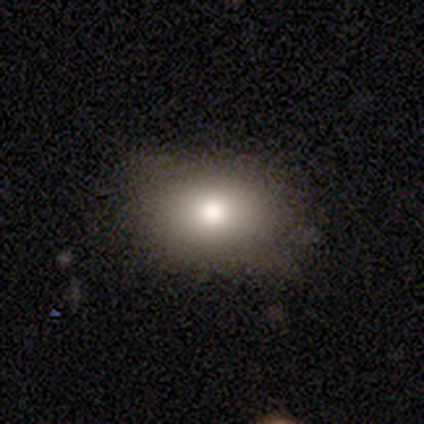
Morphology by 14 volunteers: Overall: smooth (86%). How rounded: in between (75%). Merging: none (69%; minor disturbance 31%).